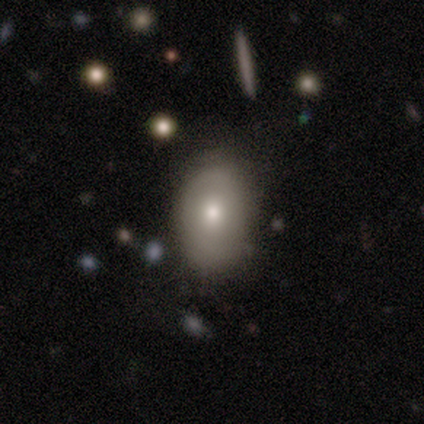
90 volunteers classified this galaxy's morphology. This appears to be a smooth galaxy with no disk features (71%) that is in between round and cigar-shaped (81%). Merging: none (70%).